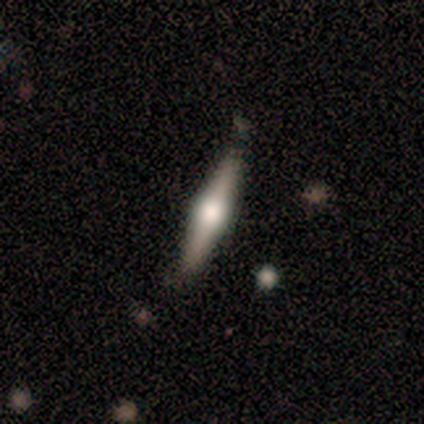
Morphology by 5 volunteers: featured or disk 80%, smooth 20%, star or artifact 0%. Down the decision tree: edge-on disk — yes (100%); edge-on bulge — rounded (100%); merging — none (60%).